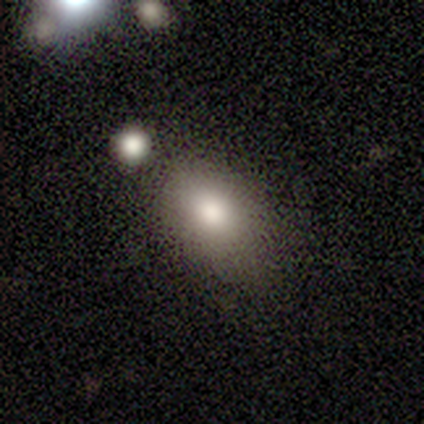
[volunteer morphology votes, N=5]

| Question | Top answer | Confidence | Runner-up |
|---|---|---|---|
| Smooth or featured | smooth | 60% | featured or disk (20%) |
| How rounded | in between | 67% | round (33%) |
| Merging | none | 100% | — |